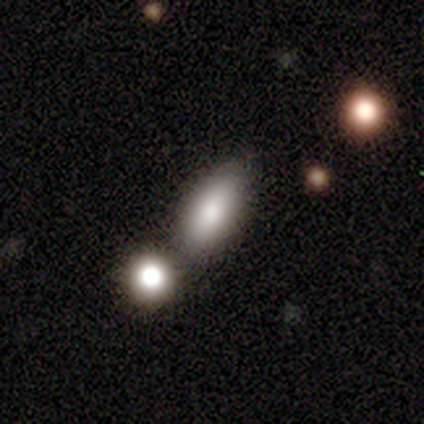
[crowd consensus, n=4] Smooth or featured: smooth — 50% (tied with star or artifact — 50%)
How rounded: in between — 100%
Merging: merger — 100%